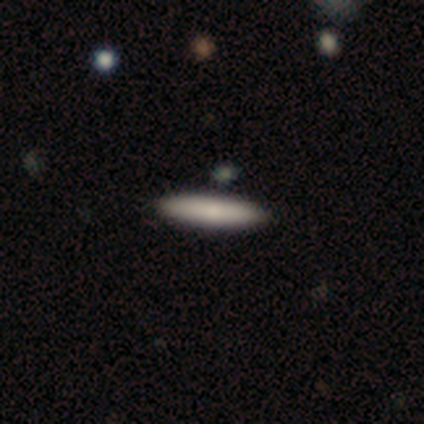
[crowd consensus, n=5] Volunteers were most divided on "smooth or featured": smooth: 60%, featured or disk: 40%, star or artifact: 0%. More confident: how rounded — cigar-shaped (100%); merging — none (100%).